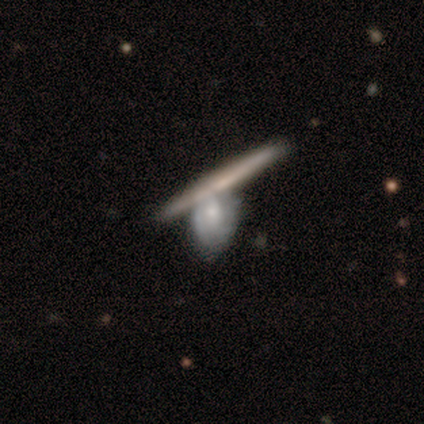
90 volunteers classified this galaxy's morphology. Q: Smooth or featured?
A: featured or disk (58%); runner-up: smooth (34%)
Q: Edge-on disk?
A: yes (63%); runner-up: no (37%)
Q: Edge-on bulge?
A: none (67%); runner-up: rounded (24%)
Q: Merging?
A: none (41%); tied with: merger (41%)